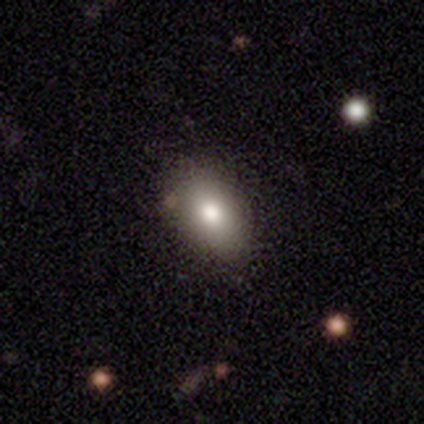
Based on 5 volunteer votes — Smooth or featured? 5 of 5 (100%) said smooth. How rounded? 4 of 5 (80%) said in between. Merging? 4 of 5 (80%) said none.